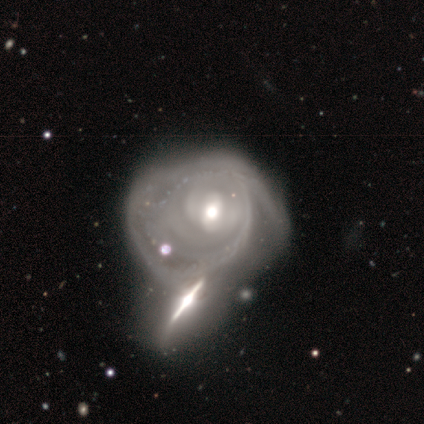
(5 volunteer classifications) Smooth or featured?
  - featured or disk: 100% *
  - smooth: 0%
  - star or artifact: 0%
Edge-on disk?
  - no: 100% *
  - yes: 0%
Bar?
  - no: 80% *
  - weak: 20%
  - strong: 0%
Spiral arms?
  - yes: 60% *
  - no: 40%
Spiral winding?
  - tight: 67% *
  - loose: 33%
  - medium: 0%
Spiral arm count?
  - can't tell: 100% *
  - 1: 0%
  - 2: 0%
  - 3: 0%
  - 4: 0%
  - more than 4: 0%
Bulge size?
  - moderate: 80% *
  - small: 20%
  - dominant: 0%
  - large: 0%
  - none: 0%
Merging?
  - merger: 60% *
  - none: 20%
  - minor disturbance: 20%
  - major disturbance: 0%